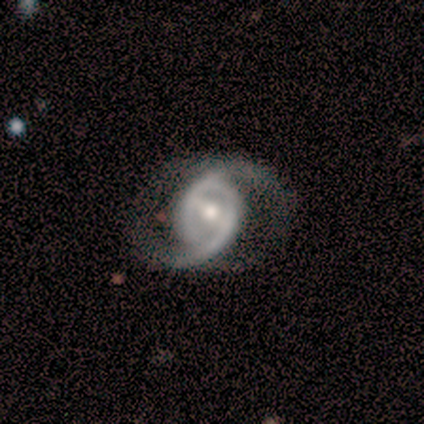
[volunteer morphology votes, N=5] Overall: featured or disk (100%). Edge-on disk: no (100%). Bar: weak (60%; strong 20%). Spiral arms: yes (60%; no 40%). Spiral arm count: can't tell (67%; 2 33%). Spiral winding: medium (100%). Bulge size: moderate (100%). Merging: none (40%, tied with major disturbance).